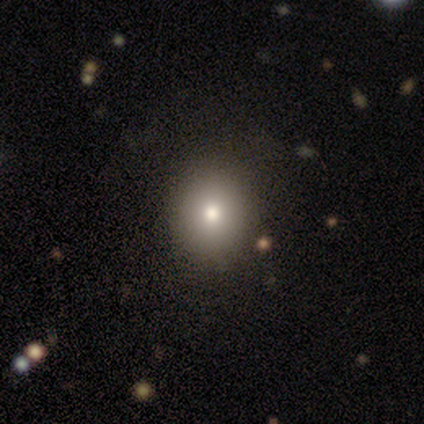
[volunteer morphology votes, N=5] A smooth galaxy with no disk features (80%) that is round (75%). Merging: none (100%).